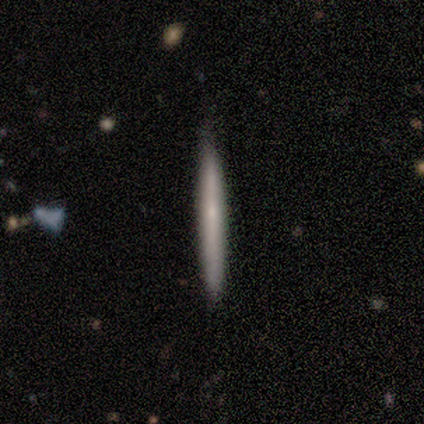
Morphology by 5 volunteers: Smooth or featured: smooth — 80% (featured or disk — 20%)
How rounded: cigar-shaped — 100%
Merging: none — 100%